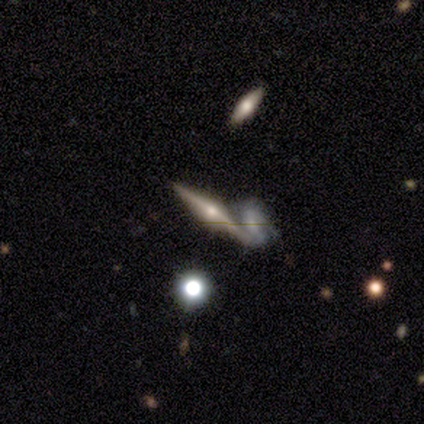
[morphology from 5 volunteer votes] A featured or disk galaxy (100%) viewed edge-on (80%) with a rounded central bulge (75%). Merging: none (60%).